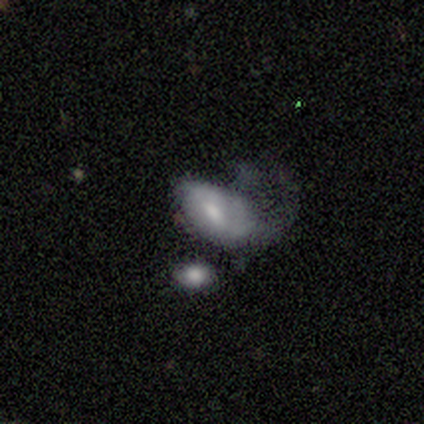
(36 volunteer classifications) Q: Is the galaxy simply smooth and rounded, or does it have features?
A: smooth — 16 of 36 (44%).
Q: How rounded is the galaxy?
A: in between — 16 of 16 (100%).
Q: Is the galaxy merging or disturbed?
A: major disturbance — 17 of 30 (57%).